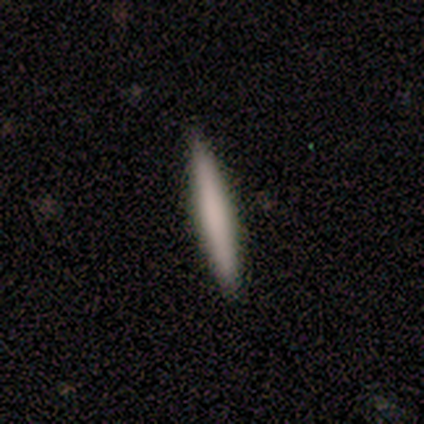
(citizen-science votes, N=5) A smooth galaxy with no disk features (60%) that is cigar-shaped (67%). Merging: none (100%).